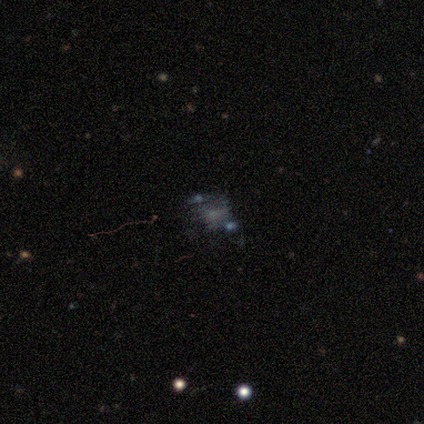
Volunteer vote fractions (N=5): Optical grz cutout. It shows a featured or disk galaxy (80%) with a strong bar (33%, tied with weak and no), no spiral arms (67%) and a small central bulge (100%). Merging: minor disturbance (50%).